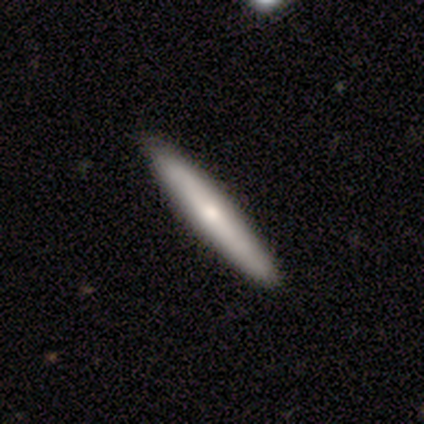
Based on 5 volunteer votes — This is clearly a smooth galaxy (80%). How rounded: clearly cigar-shaped (100%). Merging: clearly none (100%).